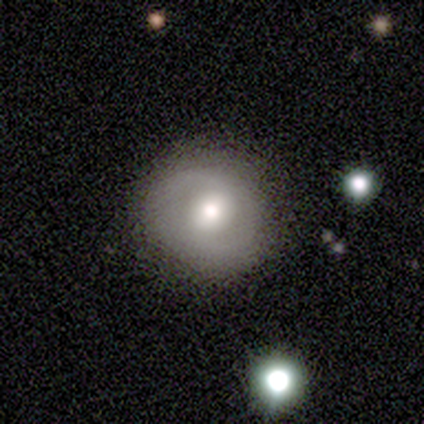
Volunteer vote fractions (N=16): A smooth galaxy with no disk features (50%, tied with featured or disk) that is round (88%). Merging: none (88%).